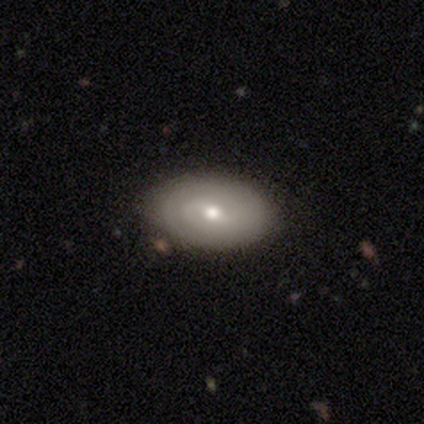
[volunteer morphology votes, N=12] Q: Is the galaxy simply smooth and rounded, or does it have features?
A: smooth — 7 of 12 (58%).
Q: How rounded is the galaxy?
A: in between — 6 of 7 (86%).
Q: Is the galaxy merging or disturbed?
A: none — 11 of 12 (92%).